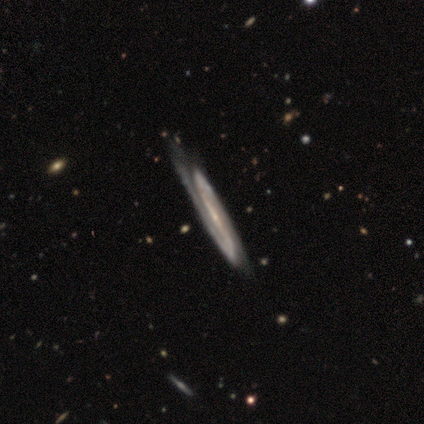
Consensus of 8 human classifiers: Smooth or featured?
  - featured or disk: 100% *
  - smooth: 0%
  - star or artifact: 0%
Edge-on disk?
  - no: 88% *
  - yes: 12%
Bar?
  - strong: 71% *
  - weak: 14%
  - no: 14%
Spiral arms?
  - yes: 86% *
  - no: 14%
Spiral winding?
  - medium: 83% *
  - tight: 17%
  - loose: 0%
Spiral arm count?
  - 2: 67% *
  - 1: 17%
  - can't tell: 17%
  - 3: 0%
  - 4: 0%
  - more than 4: 0%
Bulge size?
  - small: 71% *
  - moderate: 29%
  - dominant: 0%
  - large: 0%
  - none: 0%
Merging?
  - none: 50% *
  - merger: 25%
  - minor disturbance: 12%
  - major disturbance: 12%